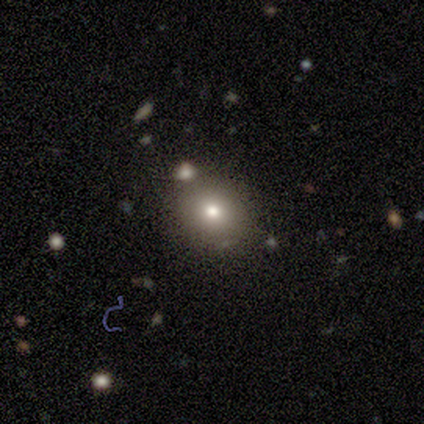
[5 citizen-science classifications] A smooth galaxy with no disk features (80%) that is round (75%).

Vote fractions:
- Smooth or featured? smooth: 80% / featured or disk: 20% / star or artifact: 0%
- How rounded? round: 75% / in between: 25% / cigar-shaped: 0%
- Merging? none: 80% / major disturbance: 20% / minor disturbance: 0% / merger: 0%